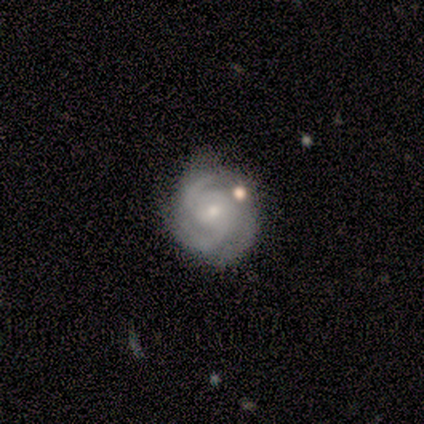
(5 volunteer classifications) Smooth or featured? featured or disk (100%)
Edge-on disk? no (100%)
Bar? no (100%)
Spiral arms? yes (100%)
Spiral winding? tight (60%)
Spiral arm count? 2 (40%, tied with can't tell)
Bulge size? small (60%)
Merging? none (60%)